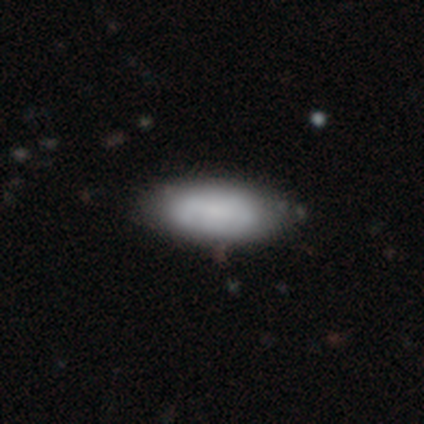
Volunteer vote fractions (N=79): Volunteers were most divided on "merging": none: 45%, minor disturbance: 5%, merger: 3%, major disturbance: 0%. More confident: how rounded — in between (93%); smooth or featured — smooth (76%).